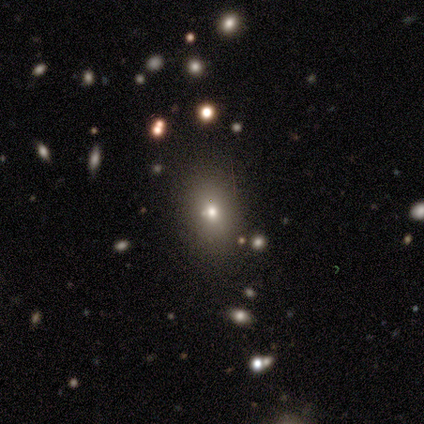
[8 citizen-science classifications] Q: Smooth or featured?
A: smooth (62%); runner-up: featured or disk (38%)
Q: How rounded?
A: round (40%); tied with: in between (40%)
Q: Merging?
A: none (88%); runner-up: merger (12%)